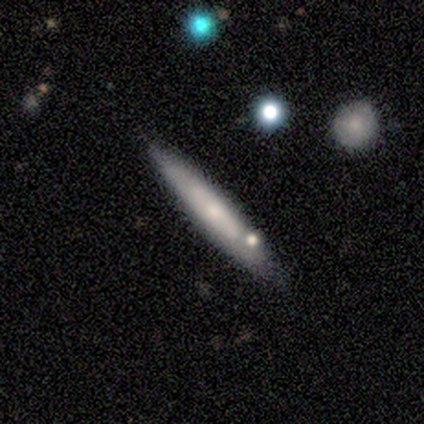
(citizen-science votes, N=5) A featured or disk galaxy (60%) viewed edge-on (67%) with no central bulge (50%, tied with rounded).

Vote fractions:
- Smooth or featured? featured or disk: 60% / smooth: 40% / star or artifact: 0%
- Edge-on disk? yes: 67% / no: 33%
- Edge-on bulge? none: 50% (tied) / rounded: 50% (tied) / boxy: 0%
- Merging? none: 100% / minor disturbance: 0% / major disturbance: 0% / merger: 0%